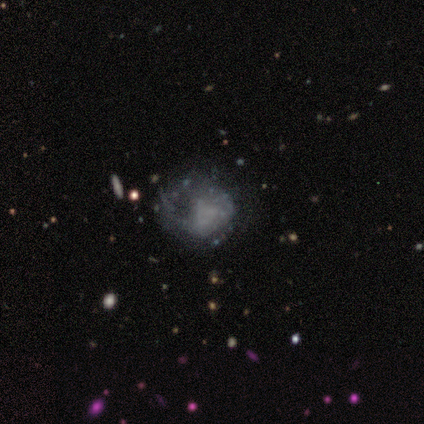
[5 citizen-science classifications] Smooth or featured?
  - featured or disk: 80% *
  - smooth: 20%
  - star or artifact: 0%
Edge-on disk?
  - no: 100% *
  - yes: 0%
Bar?
  - no: 75% *
  - weak: 25%
  - strong: 0%
Spiral arms?
  - no: 100% *
  - yes: 0%
Bulge size?
  - none: 50% *
  - moderate: 25%
  - small: 25%
  - dominant: 0%
  - large: 0%
Merging?
  - minor disturbance: 60% *
  - none: 20%
  - major disturbance: 20%
  - merger: 0%